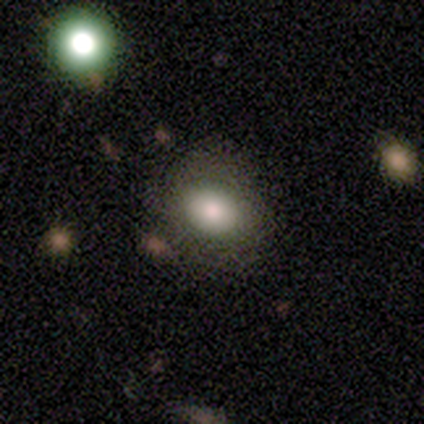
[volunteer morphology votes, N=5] This is clearly a smooth galaxy (100%). How rounded: clearly round (80%). Merging: clearly none (100%).